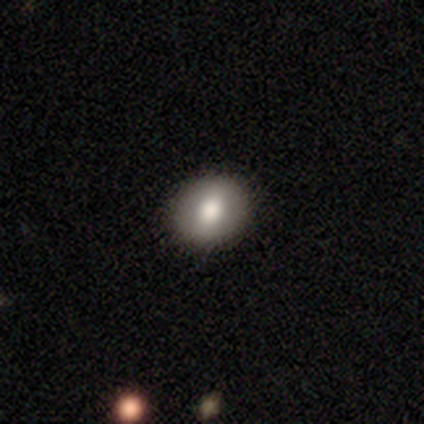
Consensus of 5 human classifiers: smooth_or_featured: smooth (p=1.00)
how_rounded: round (p=0.80) [alt: in between p=0.20]
merging: none (p=1.00)